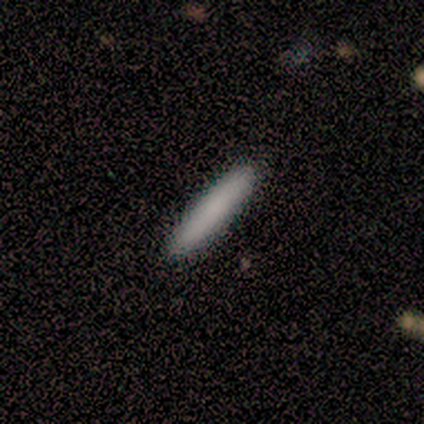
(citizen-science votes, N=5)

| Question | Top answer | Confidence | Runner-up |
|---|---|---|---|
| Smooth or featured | smooth | 100% | — |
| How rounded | cigar-shaped | 100% | — |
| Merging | none | 100% | — |